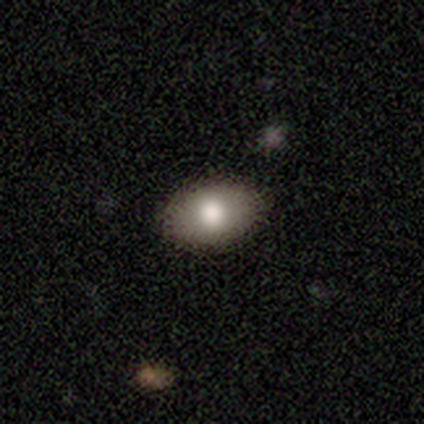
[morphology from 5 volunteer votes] Volunteers were most divided on "how rounded": in between: 80%, round: 20%, cigar-shaped: 0%. More confident: smooth or featured — smooth (100%); merging — none (80%).